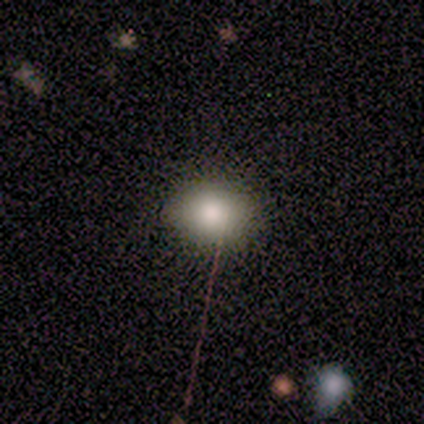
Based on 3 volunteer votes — Smooth or featured? 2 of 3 (67%) said smooth. How rounded? 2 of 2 (100%) said in between. Merging? 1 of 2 (50%, tied with minor disturbance) said none.